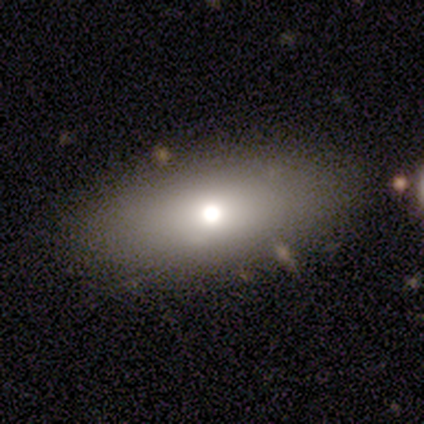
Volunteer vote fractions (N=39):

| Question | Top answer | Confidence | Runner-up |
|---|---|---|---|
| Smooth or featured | smooth | 82% | featured or disk (13%) |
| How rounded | in between | 97% | cigar-shaped (3%) |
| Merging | none | 81% | minor disturbance (11%) |